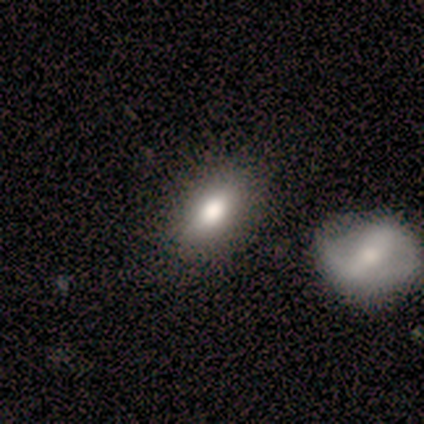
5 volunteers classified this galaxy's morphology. Q: Smooth or featured?
A: smooth (80%); runner-up: star or artifact (20%)
Q: How rounded?
A: in between (100%)
Q: Merging?
A: none (50%); tied with: merger (50%)